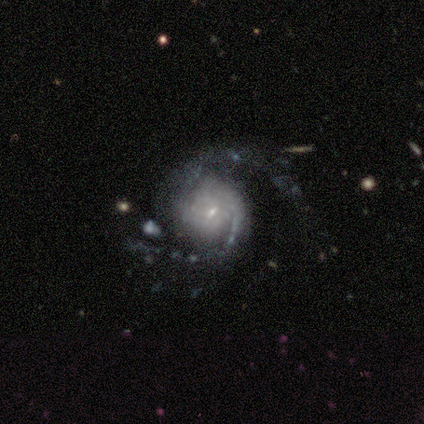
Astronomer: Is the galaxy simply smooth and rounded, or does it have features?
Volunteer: featured or disk — 100%.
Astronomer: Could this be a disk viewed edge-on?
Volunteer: no — 100%.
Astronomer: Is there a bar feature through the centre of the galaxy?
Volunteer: no — 60% (runner-up: weak, 40%).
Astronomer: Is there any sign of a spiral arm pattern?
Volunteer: yes — 100%.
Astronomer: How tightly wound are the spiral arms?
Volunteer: medium — 60% (runner-up: tight, 40%).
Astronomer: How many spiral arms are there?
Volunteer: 2 — 80%.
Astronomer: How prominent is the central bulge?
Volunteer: small — 100%.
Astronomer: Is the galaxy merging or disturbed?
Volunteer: none — 80%.